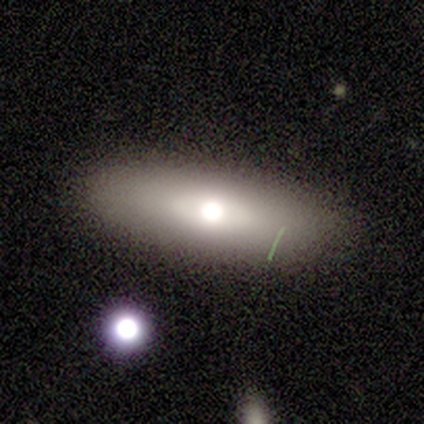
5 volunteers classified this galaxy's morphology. A featured or disk galaxy (80%) with no bar (100%), no spiral arms (100%) and a moderate central bulge (75%). Merging: none (100%).